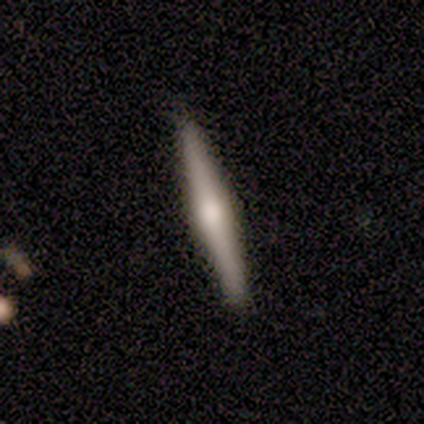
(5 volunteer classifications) Smooth or featured?
  - featured or disk: 60% *
  - smooth: 40%
  - star or artifact: 0%
Edge-on disk?
  - yes: 100% *
  - no: 0%
Edge-on bulge?
  - rounded: 100% *
  - boxy: 0%
  - none: 0%
Merging?
  - none: 100% *
  - minor disturbance: 0%
  - major disturbance: 0%
  - merger: 0%